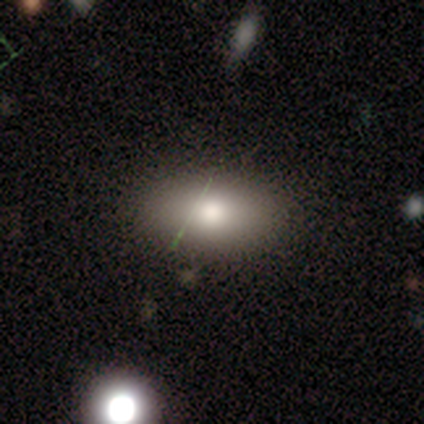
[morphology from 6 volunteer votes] Q: Smooth or featured?
A: smooth (83%); runner-up: featured or disk (17%)
Q: How rounded?
A: in between (100%)
Q: Merging?
A: none (83%); runner-up: major disturbance (17%)